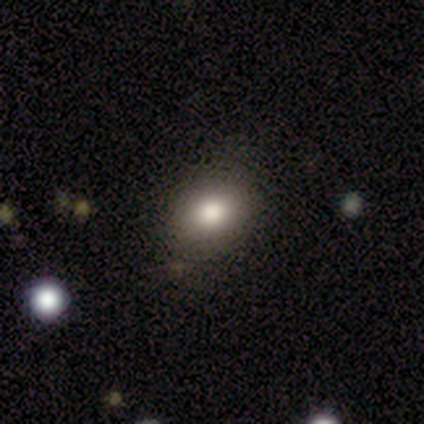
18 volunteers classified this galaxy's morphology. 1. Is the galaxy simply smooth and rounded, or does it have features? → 83% smooth, 11% star or artifact, 6% featured or disk.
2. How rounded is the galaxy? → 60% round, 40% in between, 0% cigar-shaped.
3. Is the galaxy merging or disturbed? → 81% none, 19% minor disturbance, 0% major disturbance, 0% merger.